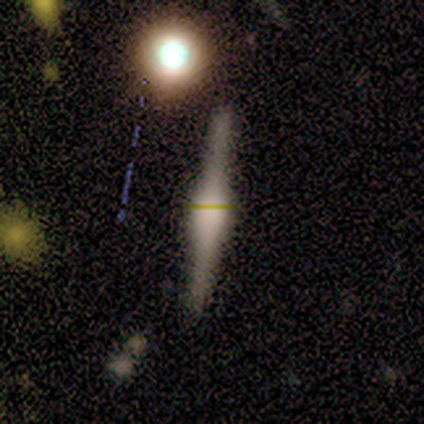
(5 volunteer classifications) This appears to be a featured or disk galaxy (100%) viewed edge-on (100%) with a boxy central bulge (60%). Merging: none (100%).